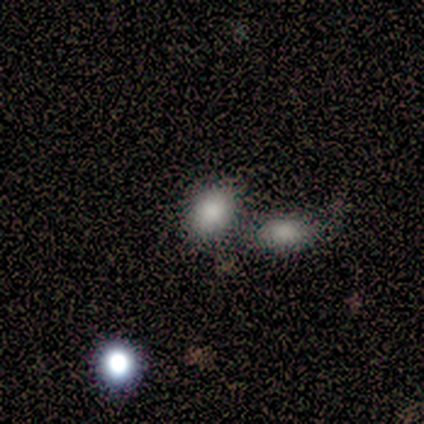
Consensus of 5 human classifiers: Overall: star or artifact (60%; smooth 40%).